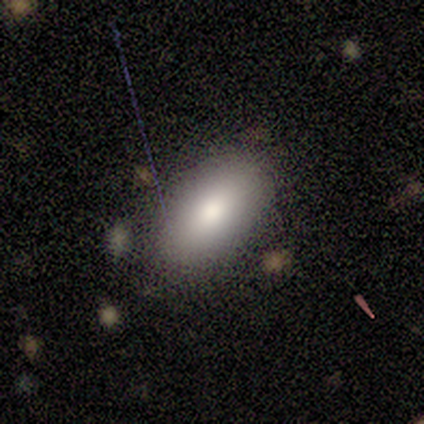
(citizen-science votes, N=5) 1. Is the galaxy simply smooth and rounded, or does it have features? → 80% smooth, 20% featured or disk, 0% star or artifact.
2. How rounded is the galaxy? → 100% in between, 0% round, 0% cigar-shaped.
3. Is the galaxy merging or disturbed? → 80% none, 20% minor disturbance, 0% major disturbance, 0% merger.